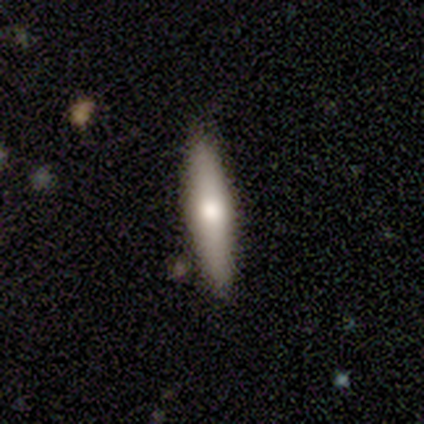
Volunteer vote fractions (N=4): smooth-or-featured: smooth: 75% | featured or disk: 25% | star or artifact: 0%
  how-rounded: cigar-shaped: 100% | round: 0% | in between: 0%
  merging: none: 75% | minor disturbance: 25% | major disturbance: 0% | merger: 0%